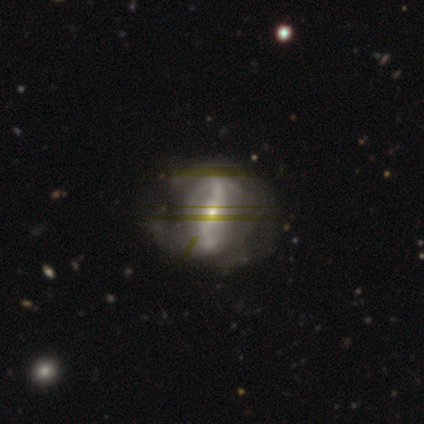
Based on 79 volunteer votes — A featured or disk galaxy (75%) with a strong bar (64%), 2 (55%) loose (52%) spiral arms (75%) and a small central bulge (70%).

Vote fractions:
- Smooth or featured? featured or disk: 75% / star or artifact: 15% / smooth: 10%
- Edge-on disk? no: 95% / yes: 5%
- Bar? strong: 64% / weak: 21% / no: 14%
- Spiral arms? yes: 75% / no: 25%
- Spiral winding? loose: 52% / tight: 26% / medium: 21%
- Spiral arm count? 2: 55% / can't tell: 31% / 1: 5% / 3: 5% / 4: 5% / more than 4: 0%
- Bulge size? small: 70% / moderate: 29% / none: 2% / dominant: 0% / large: 0%
- Merging? none: 18% (tied) / minor disturbance: 18% (tied) / major disturbance: 15% / merger: 0%